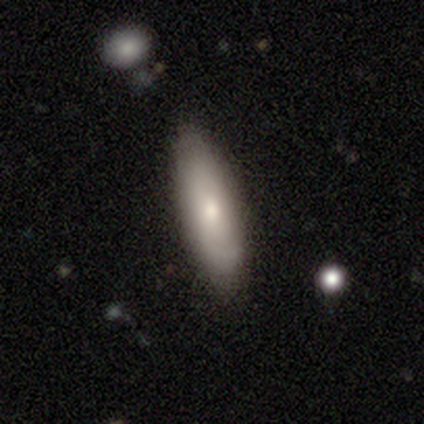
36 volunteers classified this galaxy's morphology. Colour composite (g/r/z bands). It shows a smooth galaxy with no disk features (69%) that is in between round and cigar-shaped (64%). Merging: none (89%).